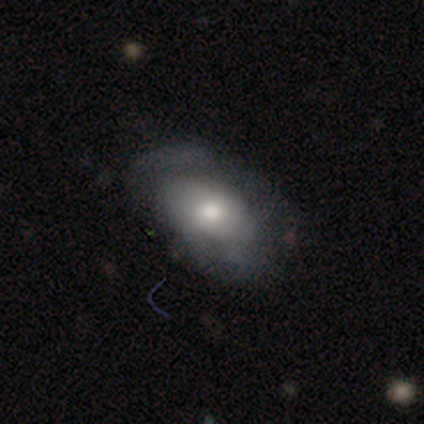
Morphology: type=featured or disk (56%); edge-on=no (95%); bar=no (95%); spiral arms=no (67%); bulge=moderate (71%); merging=none (32%).